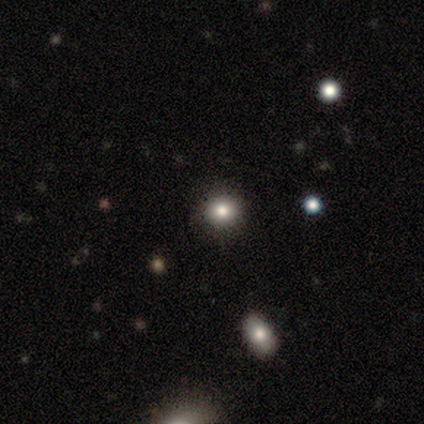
A smooth galaxy with no disk features (60%) that is round (67%). Merging: none (75%).